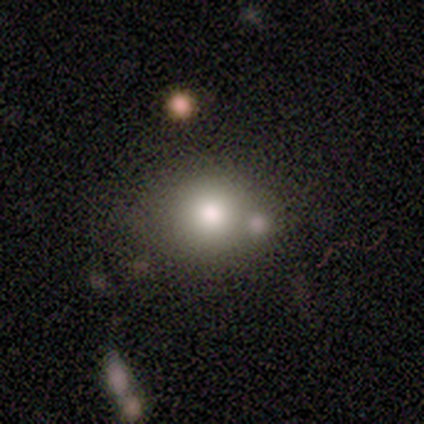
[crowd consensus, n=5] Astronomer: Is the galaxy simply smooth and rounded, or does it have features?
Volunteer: smooth — 40%, tied with star or artifact at 40%.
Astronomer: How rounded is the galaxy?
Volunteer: round — 50%, tied with in between at 50%.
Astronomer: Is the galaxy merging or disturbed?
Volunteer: none — 33%, tied with minor disturbance and merger at 33%.